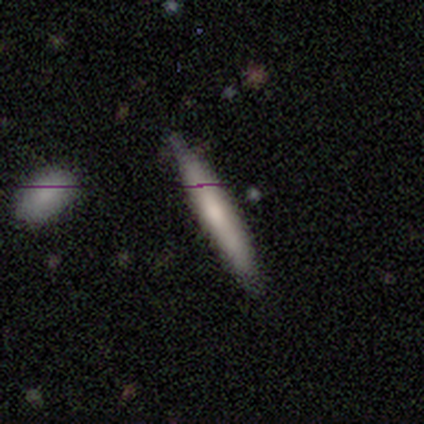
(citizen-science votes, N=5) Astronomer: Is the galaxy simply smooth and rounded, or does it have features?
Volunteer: smooth — 60% (runner-up: featured or disk, 40%).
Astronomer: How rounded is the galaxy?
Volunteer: cigar-shaped — 100%.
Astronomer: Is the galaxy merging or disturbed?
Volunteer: none — 100%.